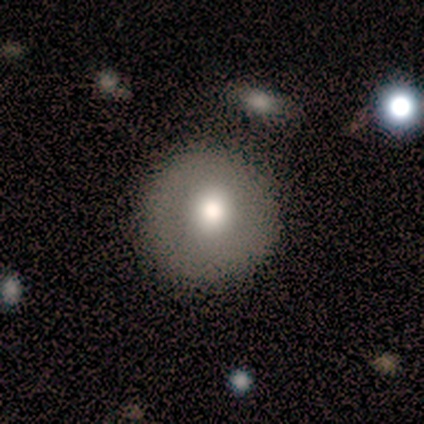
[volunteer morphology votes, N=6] type=smooth (67%); roundness=round (100%); merging=none (67%).